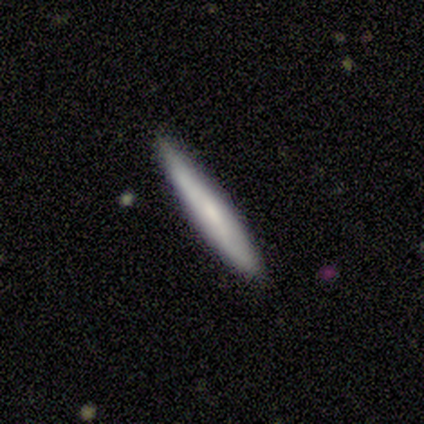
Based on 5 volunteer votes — A smooth galaxy with no disk features (100%) that is cigar-shaped (80%). Merging: none (80%).